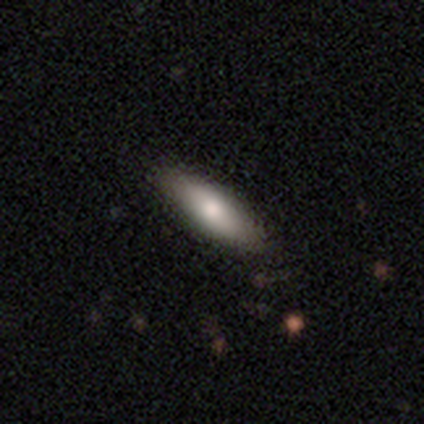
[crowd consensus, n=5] Q: Smooth or featured?
A: smooth (100%)
Q: How rounded?
A: in between (80%); runner-up: cigar-shaped (20%)
Q: Merging?
A: none (80%); runner-up: minor disturbance (20%)